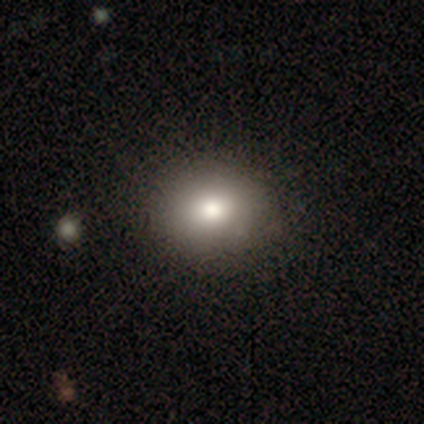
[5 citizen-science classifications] Smooth or featured?
  - smooth: 80% *
  - featured or disk: 20%
  - star or artifact: 0%
How rounded?
  - round: 75% *
  - in between: 25%
  - cigar-shaped: 0%
Merging?
  - none: 80% *
  - major disturbance: 20%
  - minor disturbance: 0%
  - merger: 0%